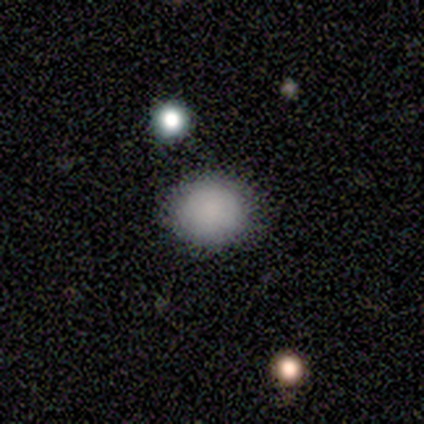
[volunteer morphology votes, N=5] Volunteers were most divided on "how rounded": round: 60%, in between: 40%, cigar-shaped: 0%. More confident: smooth or featured — smooth (100%); merging — none (100%).